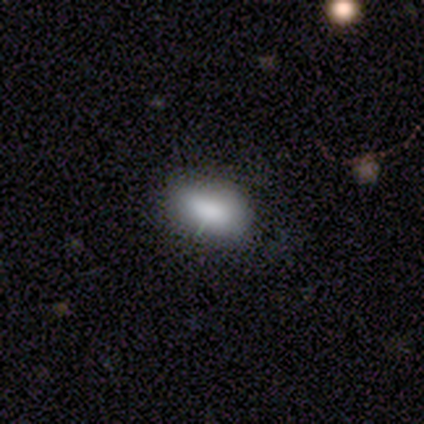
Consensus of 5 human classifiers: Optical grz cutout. It shows a smooth galaxy with no disk features (80%) that is in between round and cigar-shaped (100%). Merging: none (80%).